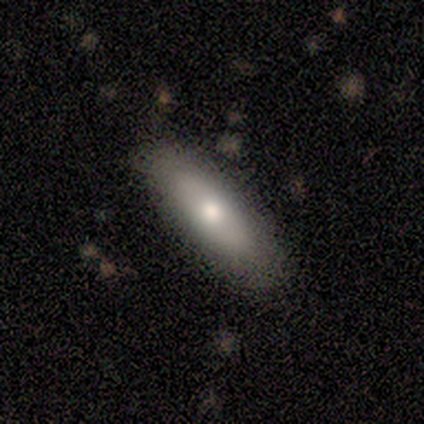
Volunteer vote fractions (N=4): This is possibly a smooth galaxy (50%, tied with featured or disk). How rounded: possibly round (50%, tied with cigar-shaped). Merging: clearly none (100%).